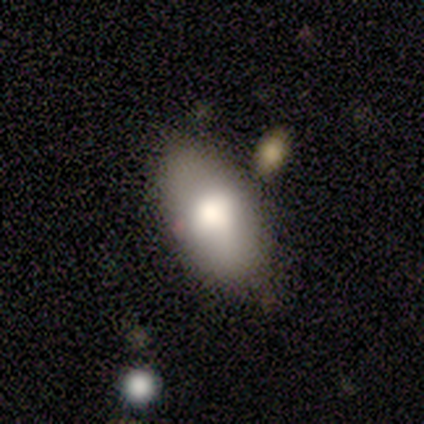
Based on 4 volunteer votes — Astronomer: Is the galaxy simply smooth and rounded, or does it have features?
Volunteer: smooth — 50%, tied with featured or disk at 50%.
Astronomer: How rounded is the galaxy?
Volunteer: in between — 100%.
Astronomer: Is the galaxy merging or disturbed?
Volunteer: none — 75%.